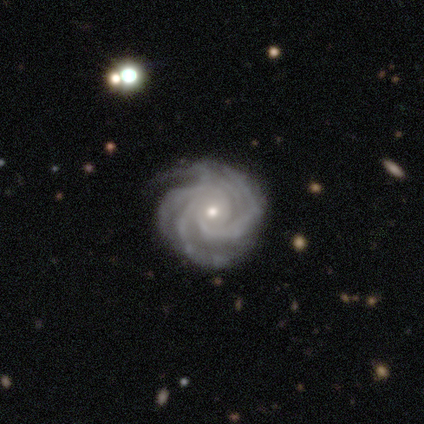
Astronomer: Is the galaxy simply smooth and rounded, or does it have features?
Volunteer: featured or disk — 97%.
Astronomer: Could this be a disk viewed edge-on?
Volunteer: no — 100%.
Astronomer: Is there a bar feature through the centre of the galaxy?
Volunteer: no — 81%.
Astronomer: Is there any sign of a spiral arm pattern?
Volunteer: yes — 100%.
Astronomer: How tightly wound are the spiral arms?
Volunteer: tight — 81%.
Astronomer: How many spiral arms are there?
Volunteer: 4 — 64%.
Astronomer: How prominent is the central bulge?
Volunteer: small — 61%.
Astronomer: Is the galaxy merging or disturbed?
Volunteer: none — 57%.